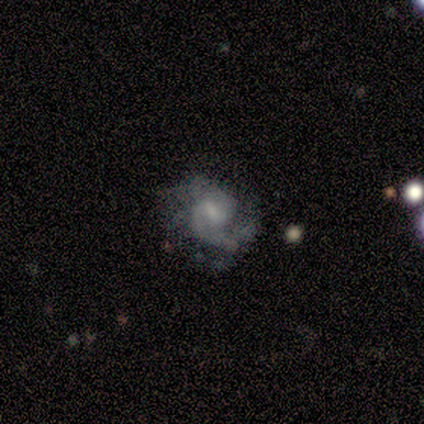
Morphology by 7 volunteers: This appears to be a featured or disk galaxy (100%) with a weak bar (71%), 2 (57%) medium (71%) spiral arms (100%) and a moderate central bulge (43%). Merging: none (43%, tied with major disturbance).